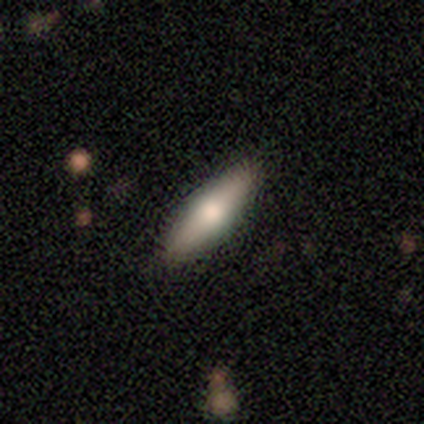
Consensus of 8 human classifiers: Smooth or featured: featured or disk — 50% (smooth — 38%)
Edge-on disk: yes — 75% (no — 25%)
Edge-on bulge: rounded — 100%
Merging: none — 100%